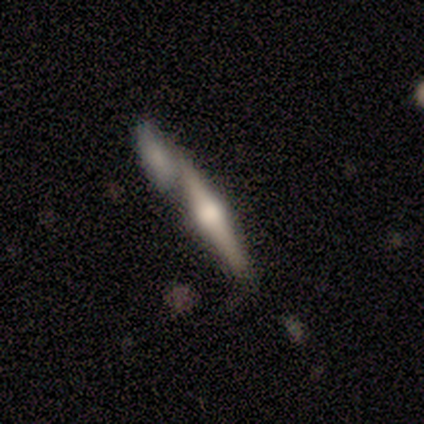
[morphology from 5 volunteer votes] smooth_or_featured: featured or disk (p=0.80) [alt: smooth p=0.20]
disk_edge_on: yes (p=1.00)
edge_on_bulge: rounded (p=1.00)
merging: none (p=0.80) [alt: merger p=0.20]